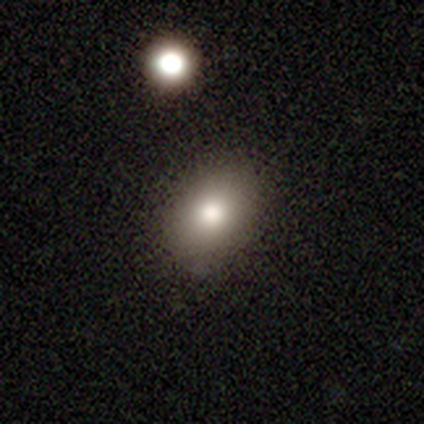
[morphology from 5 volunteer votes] Volunteers were most divided on "how rounded": in between: 60%, round: 40%, cigar-shaped: 0%. More confident: smooth or featured — smooth (100%); merging — none (80%).